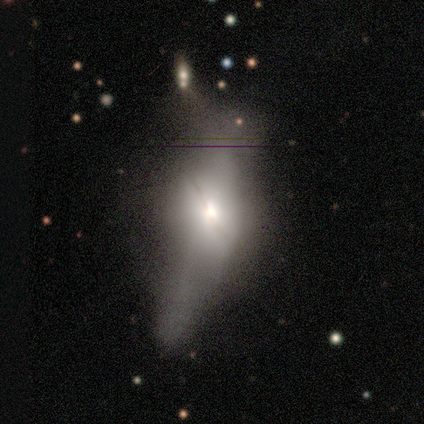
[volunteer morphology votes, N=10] featured or disk 50%, smooth 40%, star or artifact 10%. Down the decision tree: edge-on disk — no (60%); bar — no (100%); spiral arms — no (100%); bulge size — large (33%, tied with moderate and small); merging — major disturbance (56%).